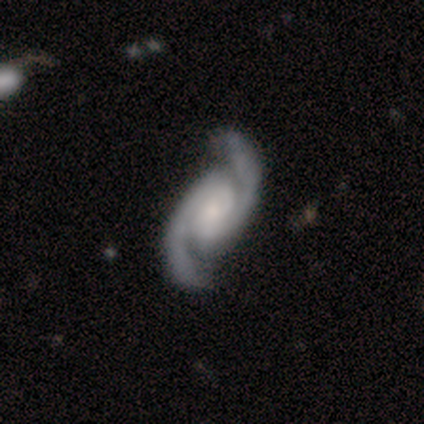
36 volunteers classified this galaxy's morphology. A featured or disk galaxy (92%) with a weak bar (45%), 2 (100%) medium (64%) spiral arms (100%) and a small central bulge (42%).

Vote fractions:
- Smooth or featured? featured or disk: 92% / smooth: 8% / star or artifact: 0%
- Edge-on disk? no: 100% / yes: 0%
- Bar? weak: 45% / no: 39% / strong: 15%
- Spiral arms? yes: 100% / no: 0%
- Spiral winding? medium: 64% / tight: 30% / loose: 6%
- Spiral arm count? 2: 100% / 1: 0% / 3: 0% / 4: 0% / more than 4: 0% / can't tell: 0%
- Bulge size? small: 42% / moderate: 27% / large: 15% / none: 12% / dominant: 3%
- Merging? none: 81% / minor disturbance: 17% / major disturbance: 3% / merger: 0%